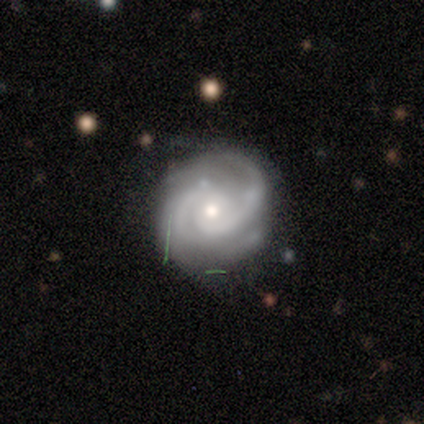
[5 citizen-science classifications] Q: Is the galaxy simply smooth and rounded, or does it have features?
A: featured or disk — 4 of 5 (80%).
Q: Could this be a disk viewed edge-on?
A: no — 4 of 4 (100%).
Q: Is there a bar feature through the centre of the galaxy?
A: no — 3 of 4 (75%).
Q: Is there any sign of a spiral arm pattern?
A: yes — 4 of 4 (100%).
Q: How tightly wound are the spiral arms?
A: tight — 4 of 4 (100%).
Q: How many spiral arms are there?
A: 2 — 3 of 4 (75%).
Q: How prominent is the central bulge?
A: moderate — 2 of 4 (50%, tied with small).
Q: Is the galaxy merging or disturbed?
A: none — 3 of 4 (75%).